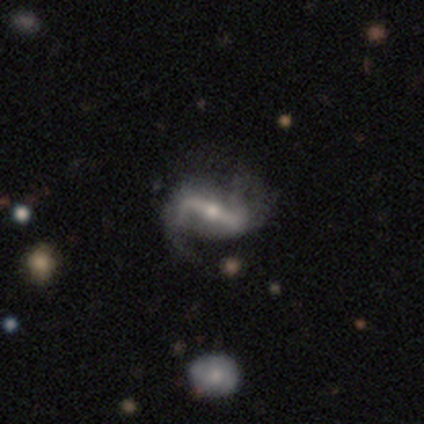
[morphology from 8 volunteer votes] Q: Smooth or featured?
A: featured or disk (88%); runner-up: star or artifact (12%)
Q: Edge-on disk?
A: no (86%); runner-up: yes (14%)
Q: Bar?
A: strong (83%); runner-up: no (17%)
Q: Spiral arms?
A: yes (100%)
Q: Spiral winding?
A: loose (67%); runner-up: tight (17%)
Q: Spiral arm count?
A: 2 (100%)
Q: Bulge size?
A: small (67%); runner-up: moderate (33%)
Q: Merging?
A: none (57%); runner-up: major disturbance (29%)